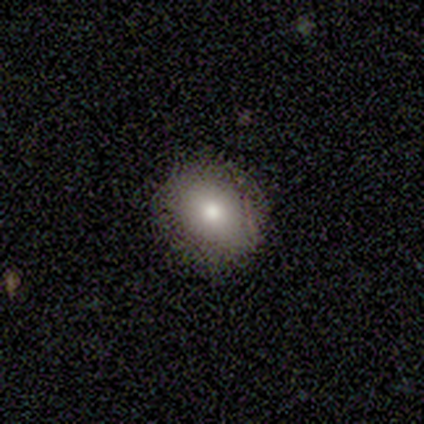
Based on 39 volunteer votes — Q: Smooth or featured?
A: smooth (74%); runner-up: featured or disk (18%)
Q: How rounded?
A: round (59%); runner-up: in between (41%)
Q: Merging?
A: none (97%); runner-up: minor disturbance (3%)